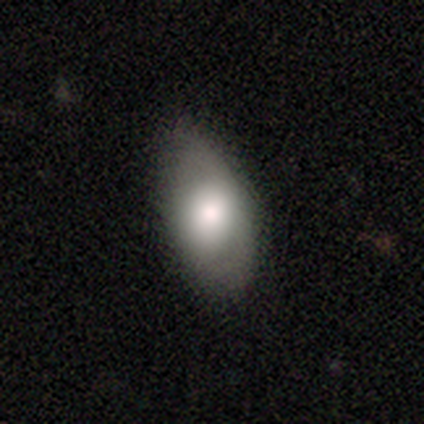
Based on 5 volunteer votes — Smooth or featured?
  - smooth: 100% *
  - featured or disk: 0%
  - star or artifact: 0%
How rounded?
  - in between: 100% *
  - round: 0%
  - cigar-shaped: 0%
Merging?
  - none: 60% *
  - minor disturbance: 40%
  - major disturbance: 0%
  - merger: 0%